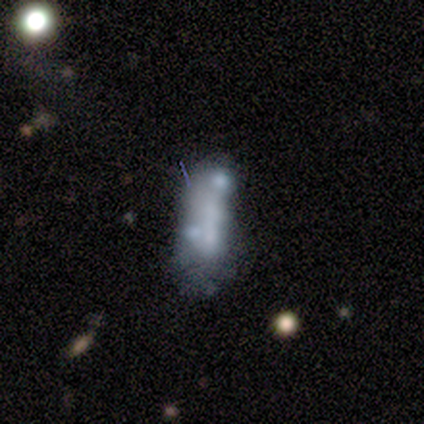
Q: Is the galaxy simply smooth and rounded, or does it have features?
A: smooth — 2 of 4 (50%).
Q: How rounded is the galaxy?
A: round — 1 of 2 (50%, tied with in between).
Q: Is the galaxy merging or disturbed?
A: merger — 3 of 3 (100%).